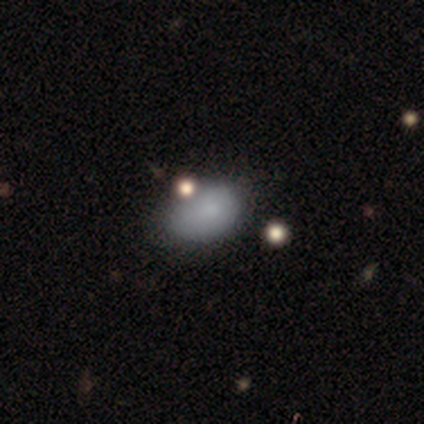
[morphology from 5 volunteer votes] Q: Smooth or featured?
A: smooth (100%)
Q: How rounded?
A: in between (80%); runner-up: round (20%)
Q: Merging?
A: none (40%); tied with: minor disturbance (40%)